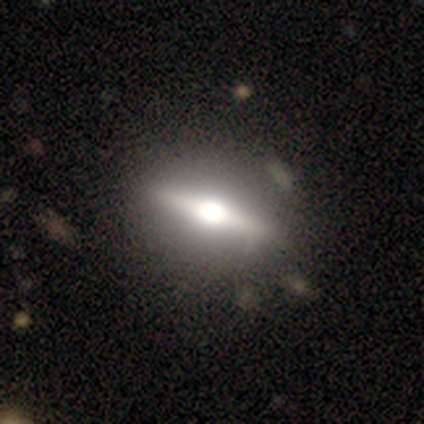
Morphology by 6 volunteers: smooth_or_featured: featured or disk (p=0.50) [alt: smooth p=0.33]
disk_edge_on: no (p=0.67) [alt: yes p=0.33]
bar: strong (p=1.00)
has_spiral_arms: no (p=1.00)
bulge_size: large (p=0.50) [tied with: moderate p=0.50]
merging: none (p=0.80) [alt: merger p=0.20]